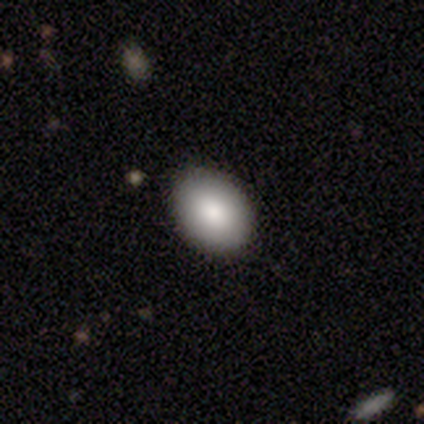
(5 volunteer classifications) Overall: smooth (100%). How rounded: round (60%; in between 40%). Merging: none (100%).